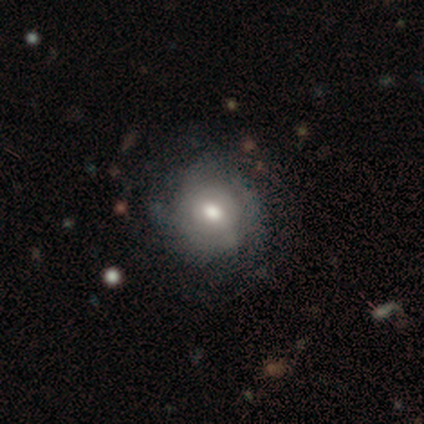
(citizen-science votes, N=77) featured or disk 49%, smooth 48%, star or artifact 3%. Down the decision tree: edge-on disk — no (97%); bar — no (76%); spiral arms — yes (57%); spiral arm count — can't tell (76%); spiral winding — tight (62%); bulge size — moderate (70%); merging — none (31%).